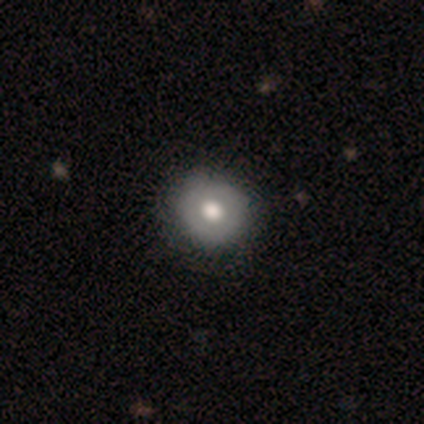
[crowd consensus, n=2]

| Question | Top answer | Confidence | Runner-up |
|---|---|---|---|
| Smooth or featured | smooth | 100% | — |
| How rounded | round | 100% | — |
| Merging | none | 100% | — |